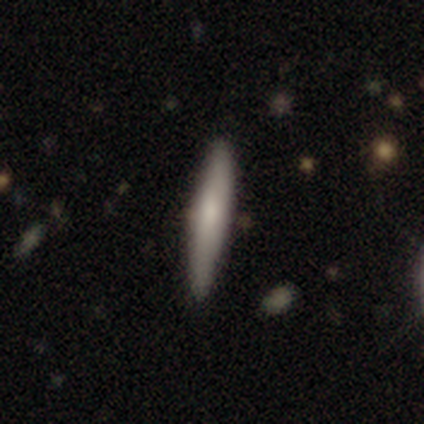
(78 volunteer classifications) Smooth or featured? smooth (72%)
How rounded? cigar-shaped (93%)
Merging? none (49%)